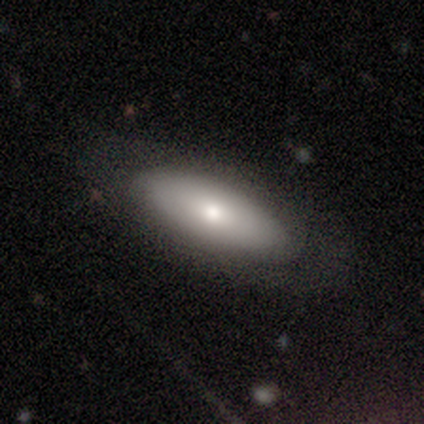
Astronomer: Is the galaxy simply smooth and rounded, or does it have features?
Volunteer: smooth — 80%.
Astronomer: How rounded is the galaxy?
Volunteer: in between — 100%.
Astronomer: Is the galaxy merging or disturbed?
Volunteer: none — 80%.